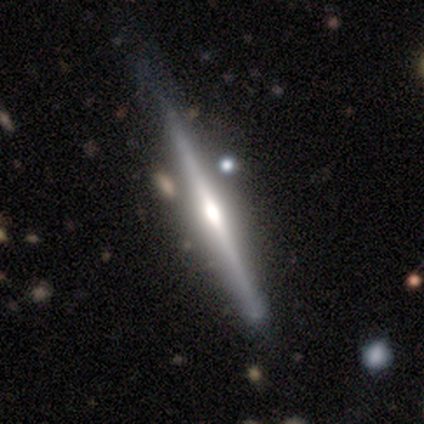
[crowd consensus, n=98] smooth-or-featured: featured or disk: 87% | smooth: 11% | star or artifact: 2%
  disk-edge-on: yes: 100% | no: 0%
    edge-on-bulge: rounded: 85% | boxy: 11% | none: 5%
  merging: none: 69% | minor disturbance: 20% | merger: 7% | major disturbance: 4%